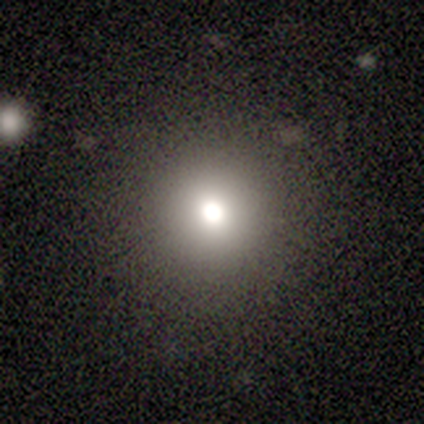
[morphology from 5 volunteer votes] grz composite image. It shows a smooth galaxy with no disk features (60%) that is round (100%). Merging: none (100%).